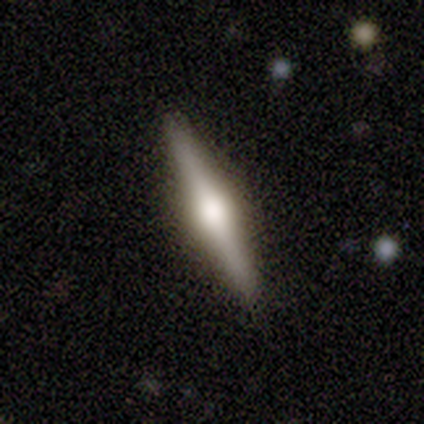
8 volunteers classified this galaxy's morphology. smooth-or-featured: featured or disk: 100% | smooth: 0% | star or artifact: 0%
  disk-edge-on: yes: 100% | no: 0%
    edge-on-bulge: rounded: 88% | none: 12% | boxy: 0%
  merging: none: 100% | minor disturbance: 0% | major disturbance: 0% | merger: 0%